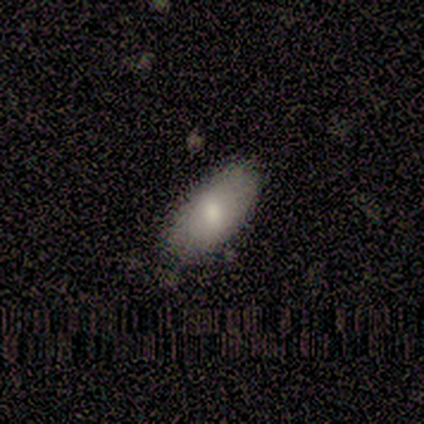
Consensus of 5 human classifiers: Overall: smooth (80%). How rounded: in between (100%). Merging: none (100%).